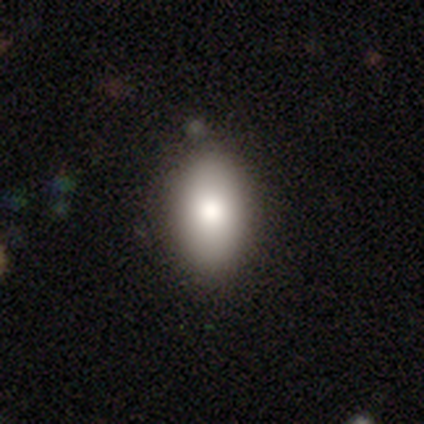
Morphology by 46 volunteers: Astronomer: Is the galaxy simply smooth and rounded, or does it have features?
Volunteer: smooth — 91%.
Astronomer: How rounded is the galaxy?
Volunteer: in between — 83%.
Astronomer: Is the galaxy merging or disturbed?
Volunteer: none — 93%.